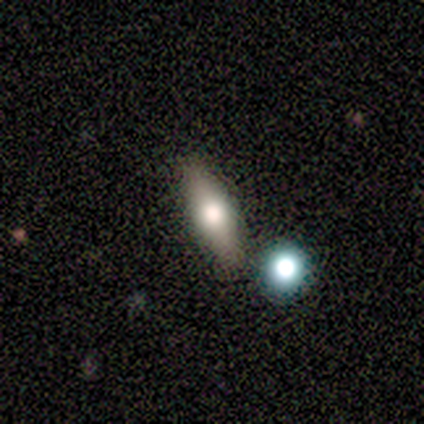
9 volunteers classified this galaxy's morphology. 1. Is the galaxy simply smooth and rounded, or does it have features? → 56% featured or disk, 44% smooth, 0% star or artifact.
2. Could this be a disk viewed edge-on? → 80% yes, 20% no.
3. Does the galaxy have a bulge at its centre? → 100% rounded, 0% boxy, 0% none.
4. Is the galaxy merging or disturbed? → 67% none, 33% minor disturbance, 0% major disturbance, 0% merger.